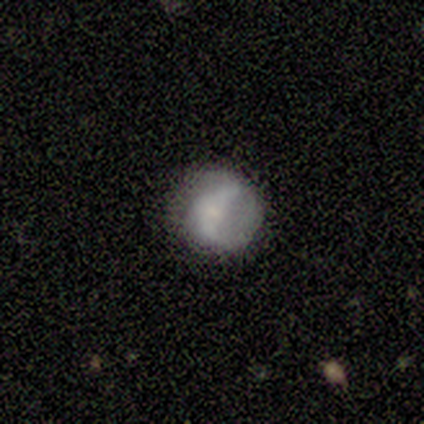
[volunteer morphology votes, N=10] Smooth or featured?
  - smooth: 60% *
  - featured or disk: 40%
  - star or artifact: 0%
How rounded?
  - round: 83% *
  - in between: 17%
  - cigar-shaped: 0%
Merging?
  - minor disturbance: 50% *
  - none: 40%
  - major disturbance: 10%
  - merger: 0%